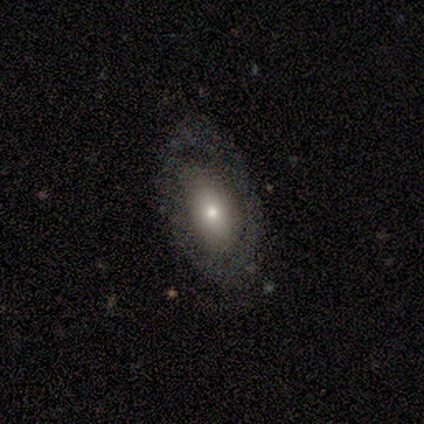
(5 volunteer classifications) Volunteers were most divided on "spiral arms" (2-way tie): yes: 50%, no: 50%; "spiral winding" (2-way tie): tight: 50%, medium: 50%, loose: 0%; "spiral arm count" (2-way tie): 2: 50%, can't tell: 50%, 1: 0%, 3: 0%, 4: 0%, more than 4: 0%; "bulge size" (2-way tie): moderate: 50%, small: 50%, dominant: 0%, large: 0%, none: 0%. More confident: edge-on disk — no (100%); bar — no (100%); smooth or featured — featured or disk (80%); merging — none (60%).